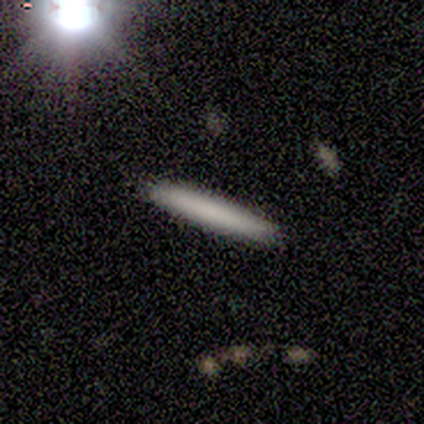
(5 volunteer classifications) Smooth or featured: smooth — 80% (featured or disk — 20%)
How rounded: cigar-shaped — 100%
Merging: none — 100%